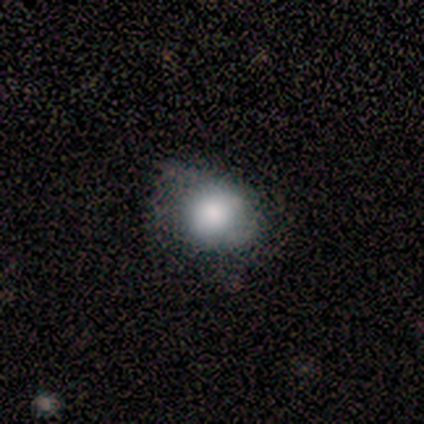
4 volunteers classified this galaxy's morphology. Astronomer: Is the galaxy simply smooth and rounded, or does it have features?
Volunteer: smooth — 100%.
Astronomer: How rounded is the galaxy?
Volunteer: round — 100%.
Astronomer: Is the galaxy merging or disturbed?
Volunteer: none — 50%, tied with minor disturbance at 50%.